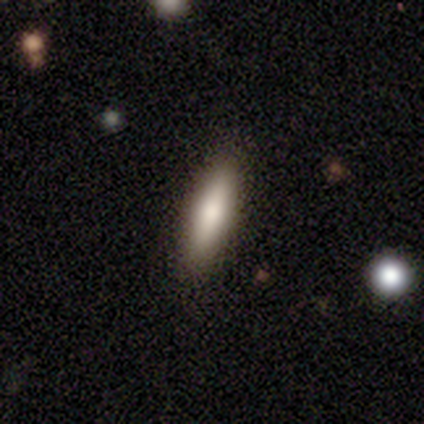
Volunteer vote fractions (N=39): smooth 77%, featured or disk 23%, star or artifact 0%. Down the decision tree: how rounded — cigar-shaped (60%); merging — none (74%).